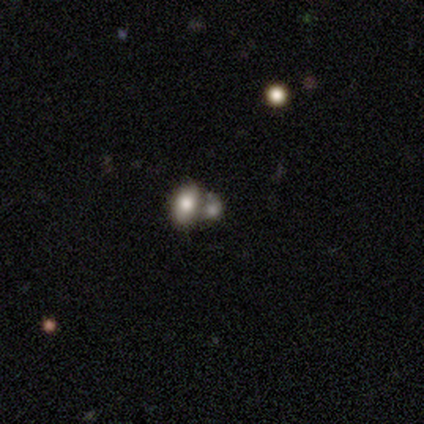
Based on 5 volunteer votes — Volunteers were most divided on "merging": merger: 60%, none: 20%, major disturbance: 20%, minor disturbance: 0%. More confident: smooth or featured — smooth (100%); how rounded — in between (100%).